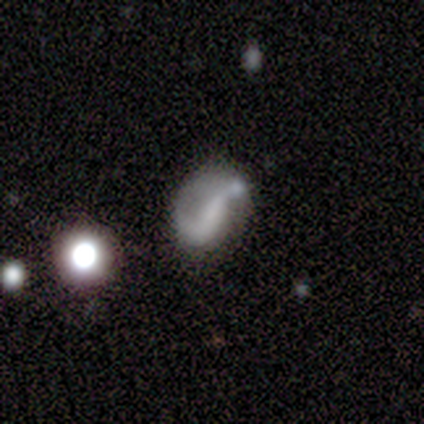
Smooth or featured?
  - featured or disk: 74% *
  - smooth: 16%
  - star or artifact: 10%
Edge-on disk?
  - no: 98% *
  - yes: 2%
Bar?
  - weak: 40% *
  - strong: 33%
  - no: 26%
Spiral arms?
  - yes: 76% *
  - no: 24%
Spiral winding?
  - loose: 72% *
  - medium: 16%
  - tight: 12%
Spiral arm count?
  - 2: 66% *
  - 1: 31%
  - can't tell: 3%
  - 3: 0%
  - 4: 0%
  - more than 4: 0%
Bulge size?
  - none: 76% *
  - moderate: 12%
  - small: 7%
  - large: 5%
  - dominant: 0%
Merging?
  - none: 46% *
  - minor disturbance: 25%
  - major disturbance: 21%
  - merger: 8%